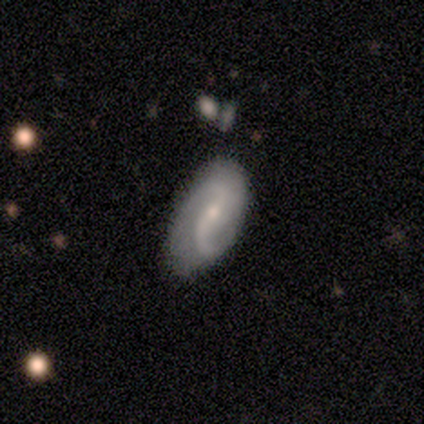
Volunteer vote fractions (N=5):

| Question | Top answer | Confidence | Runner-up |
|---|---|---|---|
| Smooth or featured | featured or disk | 100% | — |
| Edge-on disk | no | 100% | — |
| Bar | weak | 60% | strong (20%) |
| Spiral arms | yes | 100% | — |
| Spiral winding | loose | 80% | medium (20%) |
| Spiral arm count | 2 | 80% | can't tell (20%) |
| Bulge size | small | 100% | — |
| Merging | none | 60% | minor disturbance (20%) |